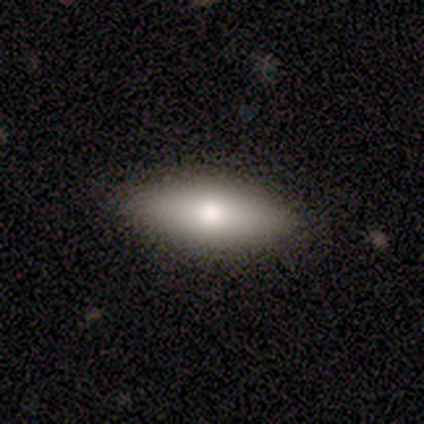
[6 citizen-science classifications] Smooth or featured? smooth (83%)
How rounded? in between (80%)
Merging? none (100%)